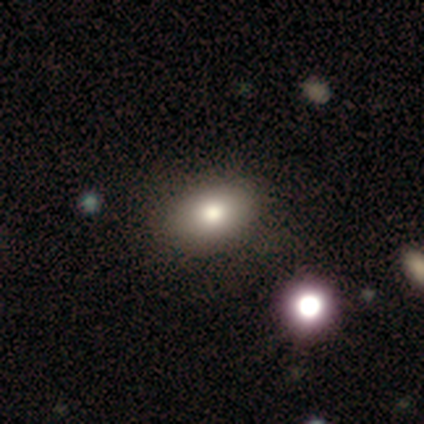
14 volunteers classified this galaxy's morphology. Smooth or featured?
  - smooth: 86% *
  - featured or disk: 7%
  - star or artifact: 7%
How rounded?
  - in between: 92% *
  - round: 8%
  - cigar-shaped: 0%
Merging?
  - none: 85% *
  - minor disturbance: 15%
  - major disturbance: 0%
  - merger: 0%